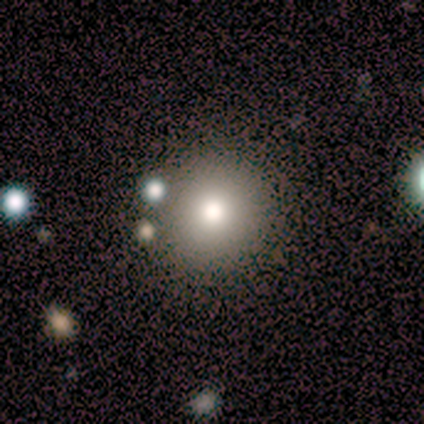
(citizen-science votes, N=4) Morphology: type=smooth (75%); roundness=round (100%); merging=none (67%).